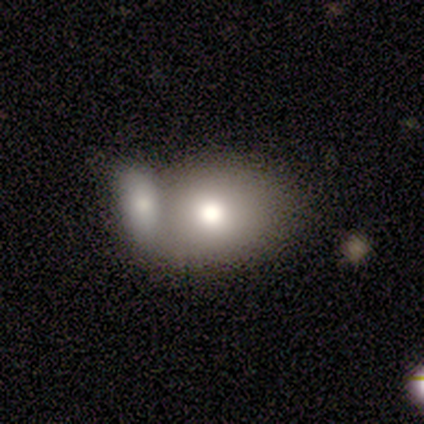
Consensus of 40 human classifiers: Q: Smooth or featured?
A: smooth (88%); runner-up: featured or disk (10%)
Q: How rounded?
A: in between (60%); runner-up: round (37%)
Q: Merging?
A: merger (59%); runner-up: none (15%)